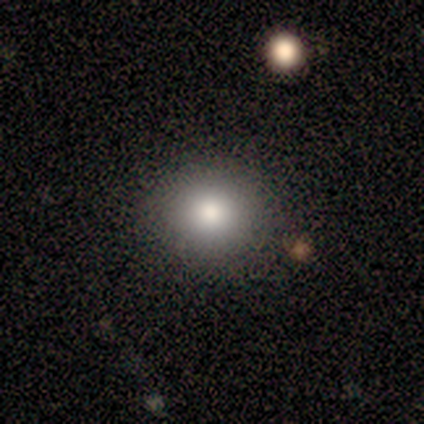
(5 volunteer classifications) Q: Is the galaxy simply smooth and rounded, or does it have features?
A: smooth — 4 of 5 (80%).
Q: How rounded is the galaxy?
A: round — 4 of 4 (100%).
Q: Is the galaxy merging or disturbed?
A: none — 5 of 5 (100%).